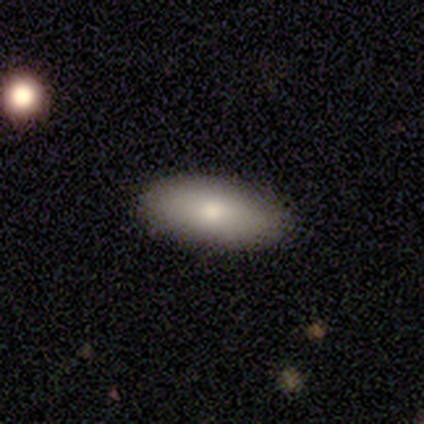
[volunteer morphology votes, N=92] This is clearly a smooth galaxy (85%). How rounded: clearly in between (82%). Merging: clearly none (93%).